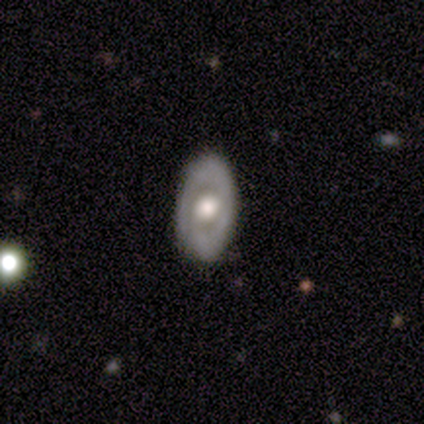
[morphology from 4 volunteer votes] Q: Smooth or featured?
A: featured or disk (100%)
Q: Edge-on disk?
A: no (100%)
Q: Bar?
A: weak (50%); tied with: no (50%)
Q: Spiral arms?
A: yes (100%)
Q: Spiral winding?
A: tight (100%)
Q: Spiral arm count?
A: 1 (50%); runner-up: 2 (25%)
Q: Bulge size?
A: large (50%); tied with: moderate (50%)
Q: Merging?
A: none (100%)